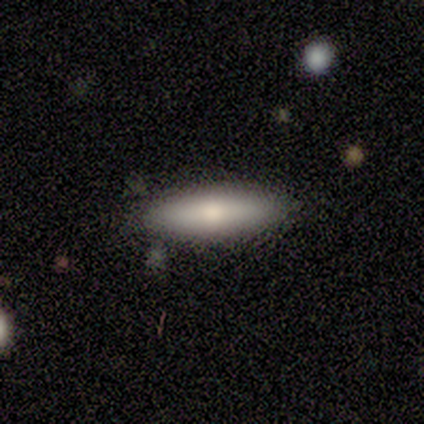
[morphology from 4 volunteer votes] type=smooth (50%, tied with featured or disk); roundness=in between (50%, tied with cigar-shaped); merging=none (100%).